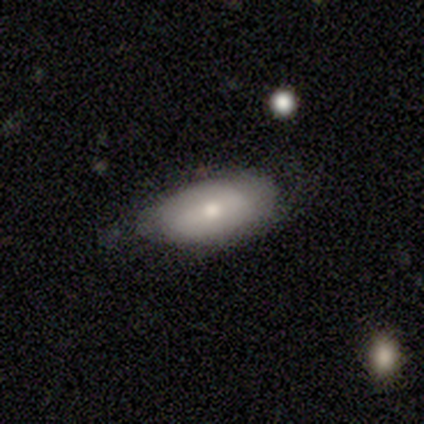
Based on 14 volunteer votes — Smooth or featured?
  - smooth: 86% *
  - featured or disk: 14%
  - star or artifact: 0%
How rounded?
  - in between: 83% *
  - cigar-shaped: 17%
  - round: 0%
Merging?
  - none: 79% *
  - minor disturbance: 21%
  - major disturbance: 0%
  - merger: 0%